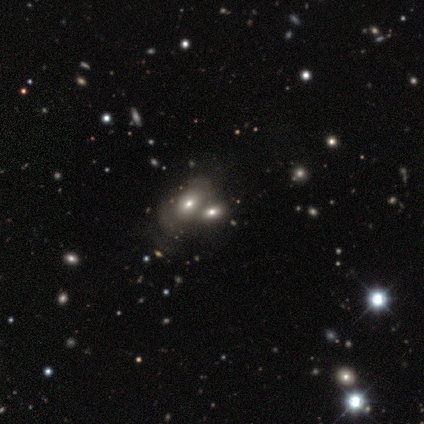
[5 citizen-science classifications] Q: Smooth or featured?
A: smooth (100%)
Q: How rounded?
A: in between (80%); runner-up: round (20%)
Q: Merging?
A: none (40%); tied with: merger (40%)